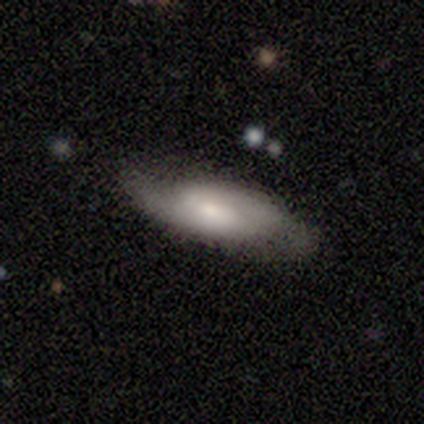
This is possibly a smooth galaxy (50%, tied with featured or disk). How rounded: clearly in between (100%). Merging: likely none (67%).